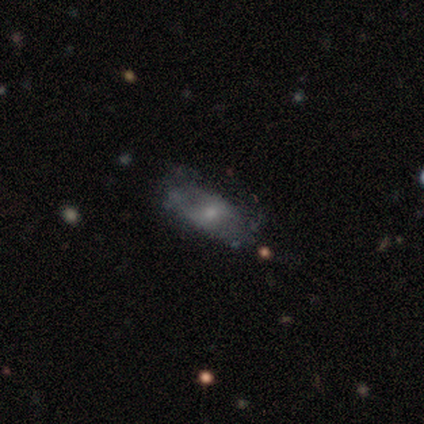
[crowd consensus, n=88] Smooth or featured: smooth — 49% (featured or disk — 40%)
How rounded: in between — 77% (cigar-shaped — 19%)
Merging: none — 59% (major disturbance — 21%)